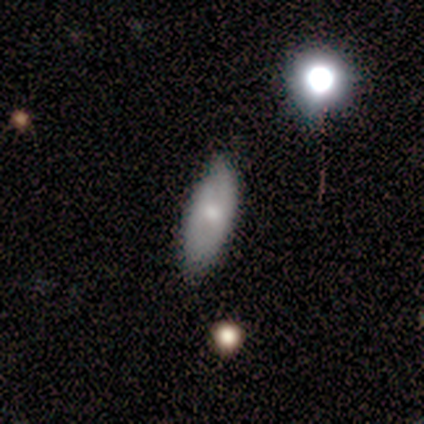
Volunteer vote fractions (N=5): A smooth galaxy with no disk features (80%) that is in between round and cigar-shaped (75%). Merging: none (80%).